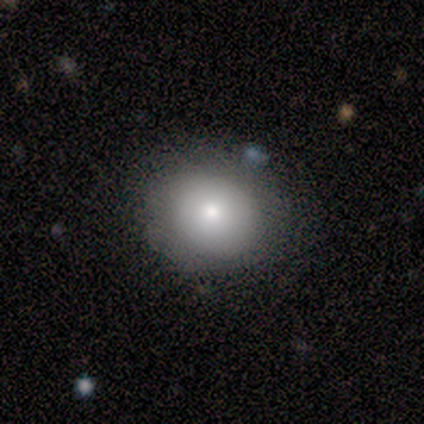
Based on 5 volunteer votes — Overall: smooth (80%). How rounded: round (50%, tied with in between). Merging: none (100%).